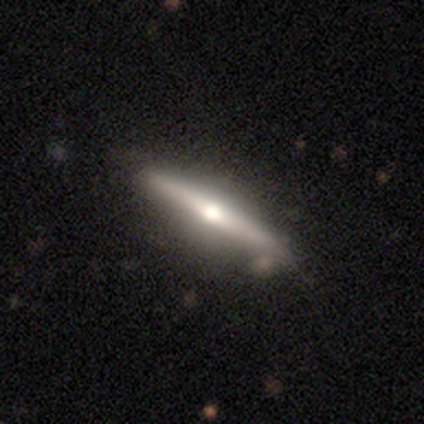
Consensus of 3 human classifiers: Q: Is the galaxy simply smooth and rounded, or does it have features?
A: smooth — 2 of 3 (67%).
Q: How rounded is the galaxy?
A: cigar-shaped — 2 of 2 (100%).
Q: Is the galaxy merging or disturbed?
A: minor disturbance — 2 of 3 (67%).